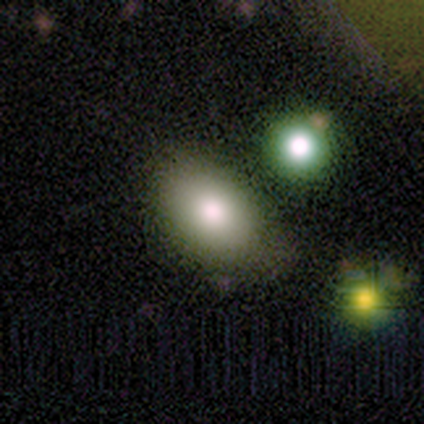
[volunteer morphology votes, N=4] Overall: smooth (75%). How rounded: in between (100%). Merging: none (100%).